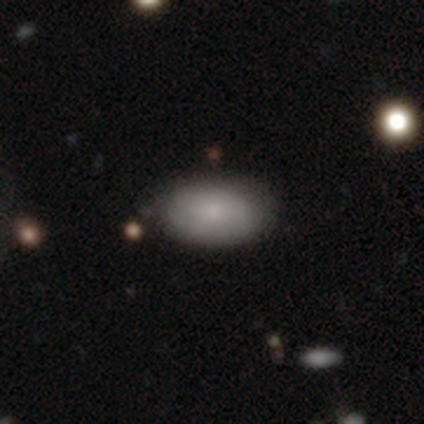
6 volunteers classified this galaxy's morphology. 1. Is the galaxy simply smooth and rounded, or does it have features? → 50% smooth, 33% star or artifact, 17% featured or disk.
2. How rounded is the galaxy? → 100% in between, 0% round, 0% cigar-shaped.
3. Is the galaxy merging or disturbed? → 100% none, 0% minor disturbance, 0% major disturbance, 0% merger.